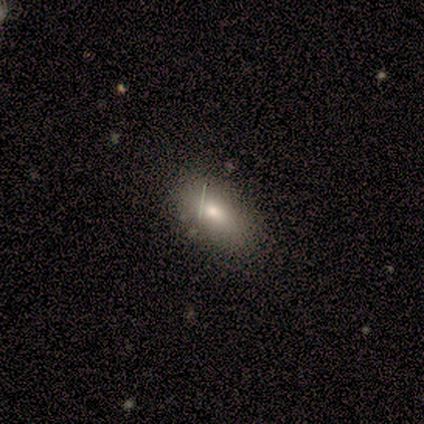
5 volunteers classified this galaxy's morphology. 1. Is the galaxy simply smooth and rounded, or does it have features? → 60% smooth, 40% star or artifact, 0% featured or disk.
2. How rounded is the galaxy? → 100% in between, 0% round, 0% cigar-shaped.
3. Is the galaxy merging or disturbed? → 67% none, 33% minor disturbance, 0% major disturbance, 0% merger.